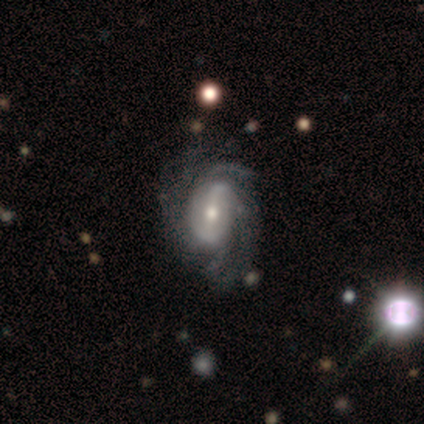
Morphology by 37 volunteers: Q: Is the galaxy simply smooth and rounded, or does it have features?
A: featured or disk — 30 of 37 (81%).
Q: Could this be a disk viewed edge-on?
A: no — 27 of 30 (90%).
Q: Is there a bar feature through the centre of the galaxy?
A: weak — 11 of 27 (41%).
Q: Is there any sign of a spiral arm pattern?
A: yes — 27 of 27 (100%).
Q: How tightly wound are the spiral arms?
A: tight — 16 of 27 (59%).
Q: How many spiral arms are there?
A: can't tell — 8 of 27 (30%).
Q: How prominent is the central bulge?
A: moderate — 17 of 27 (63%).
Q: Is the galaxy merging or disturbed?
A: none — 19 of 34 (56%).